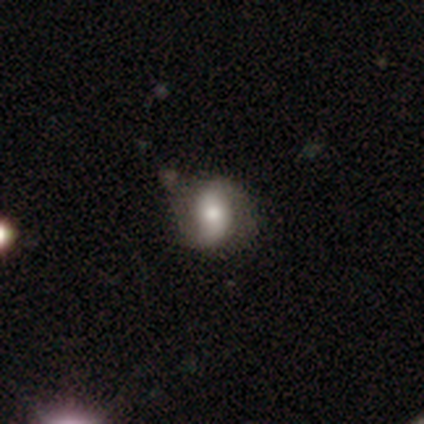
Overall: featured or disk (60%; smooth 40%). Edge-on disk: no (100%). Bar: no (67%; strong 33%). Spiral arms: yes (67%; no 33%). Spiral arm count: 2 (100%). Spiral winding: loose (100%). Bulge size: moderate (100%). Merging: none (80%).